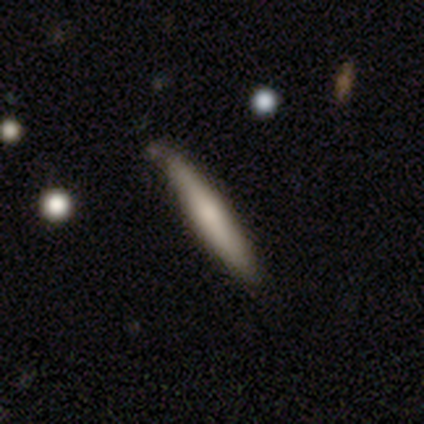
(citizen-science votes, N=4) This is possibly a smooth galaxy (50%, tied with featured or disk). How rounded: clearly cigar-shaped (100%). Merging: possibly none (50%, tied with minor disturbance).